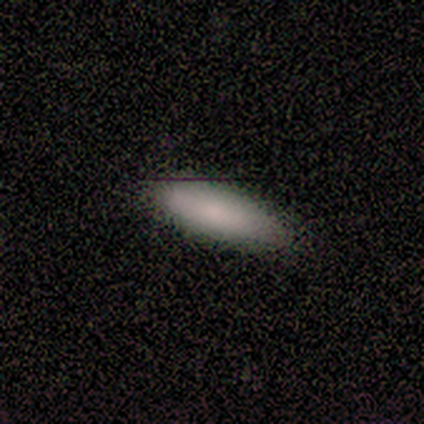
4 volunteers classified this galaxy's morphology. smooth-or-featured: smooth: 75% | featured or disk: 25% | star or artifact: 0%
  how-rounded: in between: 100% | round: 0% | cigar-shaped: 0%
  merging: none: 75% | minor disturbance: 25% | major disturbance: 0% | merger: 0%